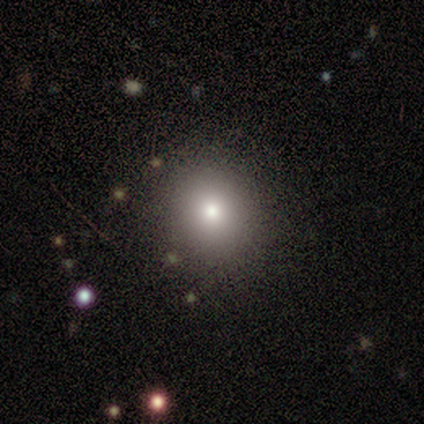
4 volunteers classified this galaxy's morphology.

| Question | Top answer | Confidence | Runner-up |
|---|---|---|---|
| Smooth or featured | smooth | 75% | star or artifact (25%) |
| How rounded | round | 100% | — |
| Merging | none | 100% | — |